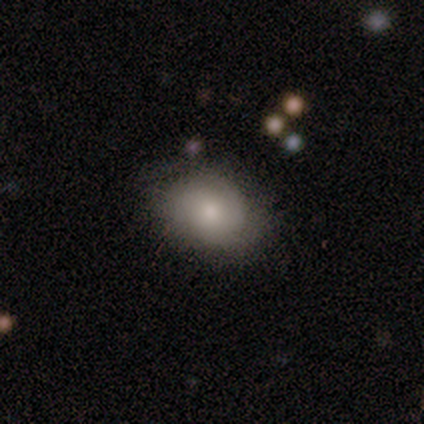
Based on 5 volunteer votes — Volunteers were most divided on "how rounded": in between: 60%, round: 40%, cigar-shaped: 0%. More confident: smooth or featured — smooth (100%); merging — none (100%).